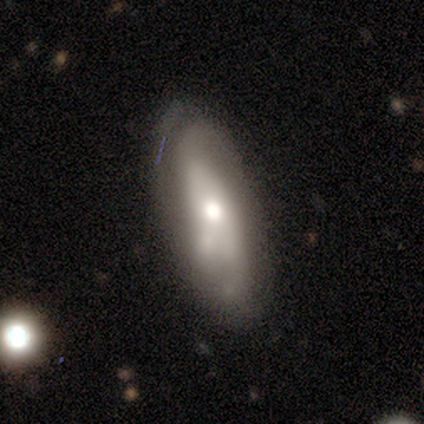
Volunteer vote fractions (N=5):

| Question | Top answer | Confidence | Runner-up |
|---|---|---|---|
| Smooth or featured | featured or disk | 60% | smooth (40%) |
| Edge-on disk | no | 67% | yes (33%) |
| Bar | no | 100% | — |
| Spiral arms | yes | 50% | tied: no (50%) |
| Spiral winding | tight | 100% | — |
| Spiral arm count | can't tell | 100% | — |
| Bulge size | moderate | 100% | — |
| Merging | none | 80% | minor disturbance (20%) |